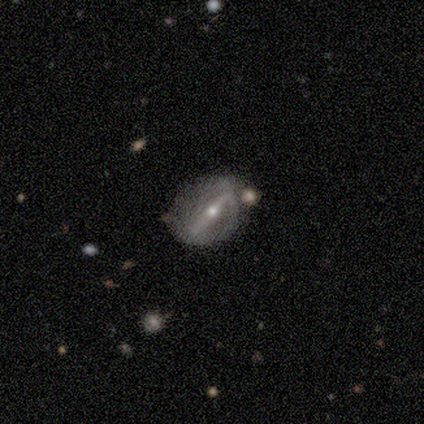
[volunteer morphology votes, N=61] Smooth or featured? 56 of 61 (92%) said featured or disk. Edge-on disk? 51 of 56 (91%) said no. Bar? 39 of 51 (76%) said strong. Spiral arms? 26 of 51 (51%) said no. Bulge size? 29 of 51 (57%) said small. Merging? 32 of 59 (54%) said none.